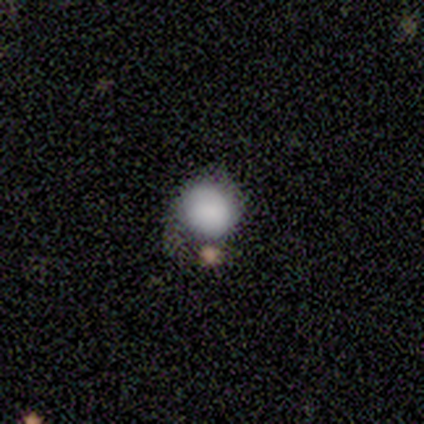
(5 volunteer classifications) smooth 80%, star or artifact 20%, featured or disk 0%. Down the decision tree: how rounded — round (100%); merging — none (50%, tied with minor disturbance).